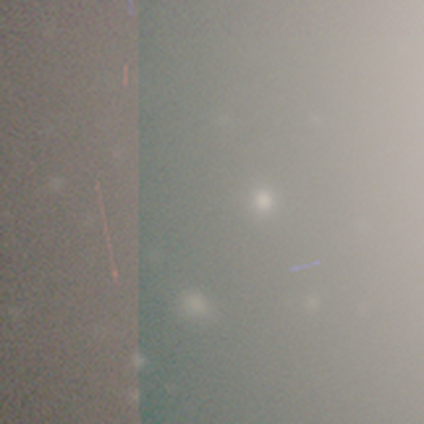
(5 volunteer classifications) Q: Smooth or featured?
A: star or artifact (60%); runner-up: smooth (40%)